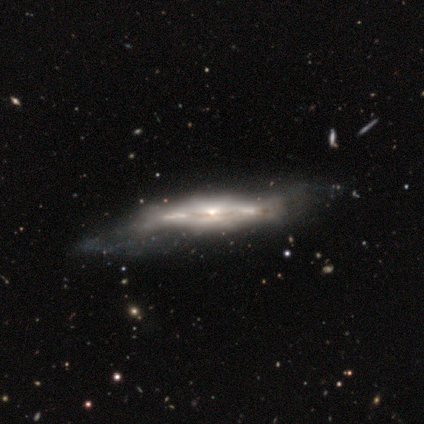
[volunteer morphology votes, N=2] featured or disk 100%, smooth 0%, star or artifact 0%. Down the decision tree: edge-on disk — yes (100%); edge-on bulge — boxy (50%, tied with rounded); merging — none (50%, tied with major disturbance).